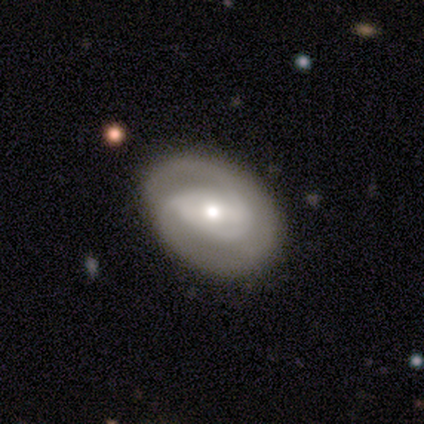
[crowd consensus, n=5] Smooth or featured?
  - featured or disk: 80% *
  - smooth: 20%
  - star or artifact: 0%
Edge-on disk?
  - no: 100% *
  - yes: 0%
Bar?
  - weak: 100% *
  - strong: 0%
  - no: 0%
Spiral arms?
  - yes: 100% *
  - no: 0%
Spiral winding?
  - tight: 50% * (tied)
  - medium: 50% * (tied)
  - loose: 0%
Spiral arm count?
  - 2: 50% *
  - 1: 25%
  - can't tell: 25%
  - 3: 0%
  - 4: 0%
  - more than 4: 0%
Bulge size?
  - small: 50% *
  - large: 25%
  - moderate: 25%
  - dominant: 0%
  - none: 0%
Merging?
  - none: 100% *
  - minor disturbance: 0%
  - major disturbance: 0%
  - merger: 0%